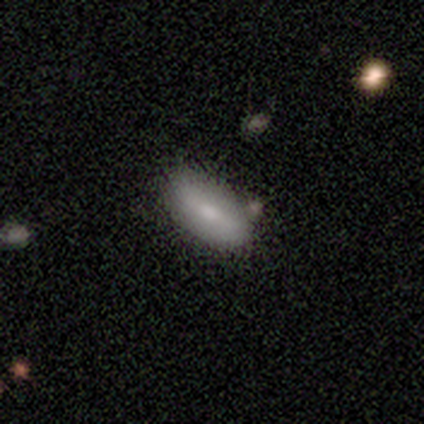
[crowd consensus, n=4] smooth_or_featured: smooth (p=1.00)
how_rounded: in between (p=0.75) [alt: cigar-shaped p=0.25]
merging: none (p=1.00)